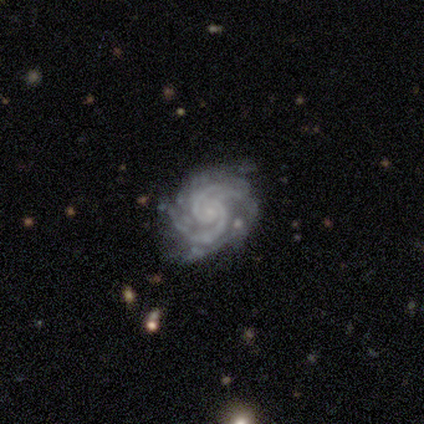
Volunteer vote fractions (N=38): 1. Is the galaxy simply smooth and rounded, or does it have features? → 92% featured or disk, 8% star or artifact, 0% smooth.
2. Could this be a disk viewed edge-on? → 97% no, 3% yes.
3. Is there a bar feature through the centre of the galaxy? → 79% no, 12% weak, 9% strong.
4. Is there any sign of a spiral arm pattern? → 97% yes, 3% no.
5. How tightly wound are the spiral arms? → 64% tight, 33% medium, 3% loose.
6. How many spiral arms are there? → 48% 2, 39% 3, 6% 4, 6% more than 4, 0% 1, 0% can't tell.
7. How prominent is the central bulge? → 74% small, 21% none, 6% moderate, 0% dominant, 0% large.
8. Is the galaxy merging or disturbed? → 80% none, 11% minor disturbance, 6% major disturbance, 3% merger.